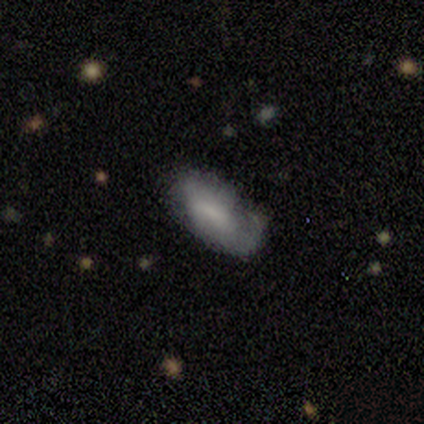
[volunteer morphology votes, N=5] smooth_or_featured: smooth (p=1.00)
how_rounded: cigar-shaped (p=0.60) [alt: in between p=0.40]
merging: none (p=0.60) [alt: minor disturbance p=0.40]